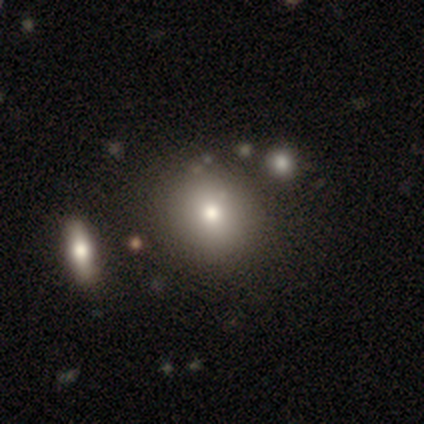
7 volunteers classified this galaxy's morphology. Overall: smooth (57%; star or artifact 29%). How rounded: round (100%). Merging: none (80%).